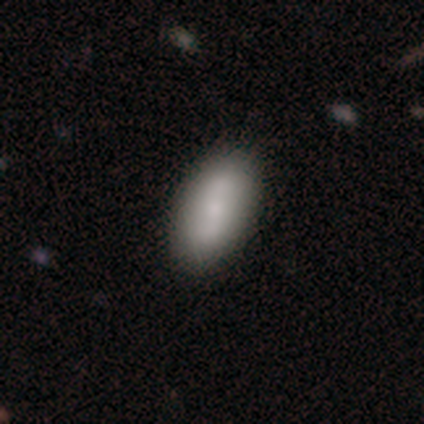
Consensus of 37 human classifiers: Smooth or featured: smooth — 70% (featured or disk — 30%)
How rounded: in between — 88% (round — 8%)
Merging: none — 84% (minor disturbance — 11%)